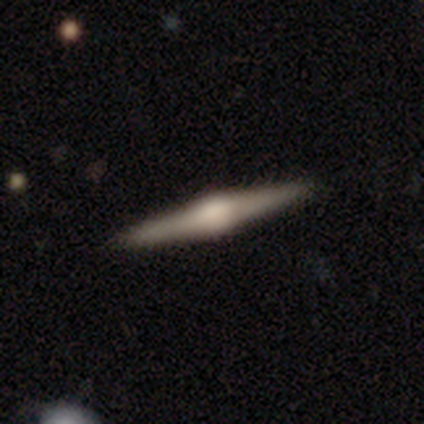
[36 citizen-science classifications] This appears to be a featured or disk galaxy (81%) viewed edge-on (100%) with a rounded central bulge (90%). Merging: none (94%).